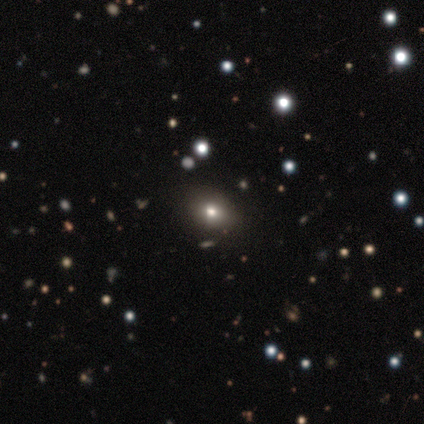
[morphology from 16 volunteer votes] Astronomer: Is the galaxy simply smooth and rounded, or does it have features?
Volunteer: smooth — 62%.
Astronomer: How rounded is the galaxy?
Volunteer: in between — 90%.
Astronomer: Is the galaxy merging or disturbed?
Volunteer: none — 82%.